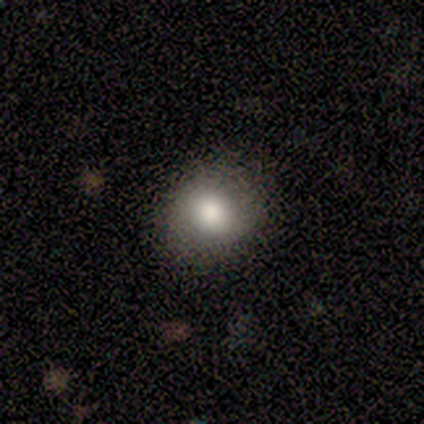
Q: Smooth or featured?
A: smooth (71%); runner-up: featured or disk (14%)
Q: How rounded?
A: round (100%)
Q: Merging?
A: none (83%); runner-up: major disturbance (17%)